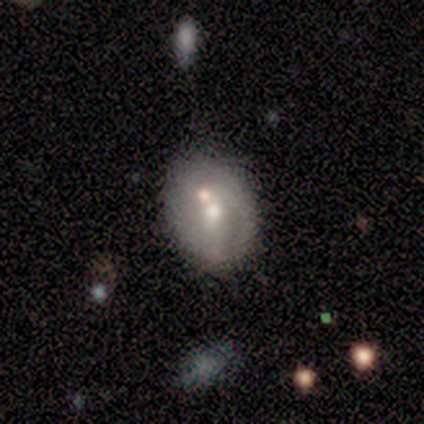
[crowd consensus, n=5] Smooth or featured? featured or disk (80%)
Edge-on disk? no (100%)
Bar? no (50%)
Spiral arms? no (75%)
Bulge size? moderate (50%, tied with small)
Merging? none (40%, tied with merger)